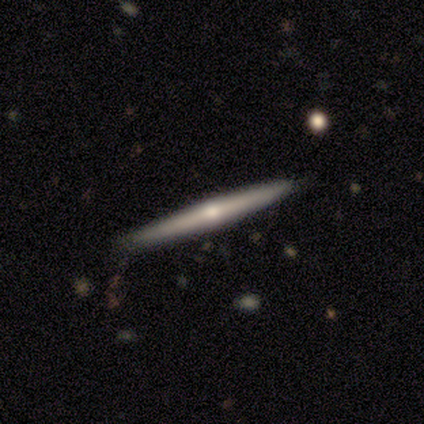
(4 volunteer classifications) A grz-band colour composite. It shows a featured or disk galaxy (100%) viewed edge-on (100%) with a rounded central bulge (100%). Merging: none (75%).